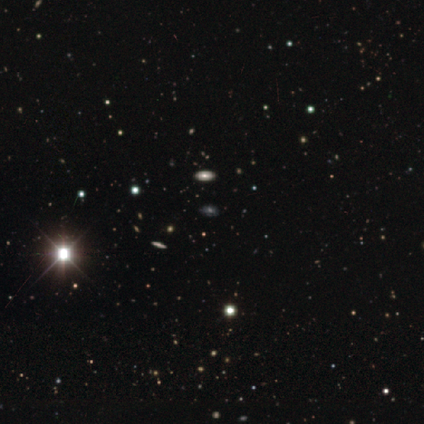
smooth_or_featured: smooth (p=0.40) [tied with: star or artifact p=0.40]
how_rounded: in between (p=1.00)
merging: none (p=0.67) [alt: minor disturbance p=0.33]